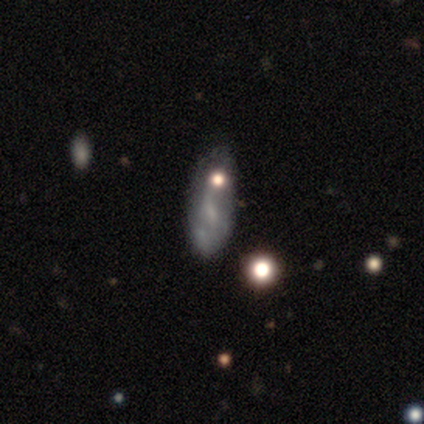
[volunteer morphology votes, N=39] A featured or disk galaxy (46%) with a weak bar (40%, tied with no), no spiral arms (60%) and no central bulge (33%). Merging: none (41%).